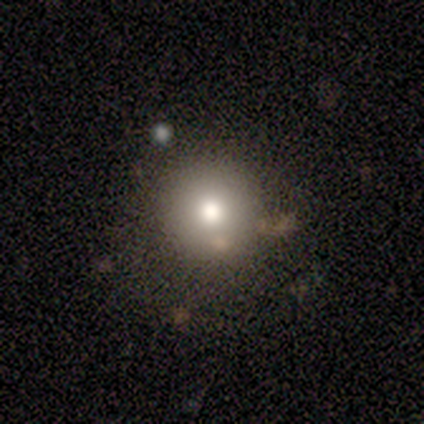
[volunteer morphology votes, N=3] type=smooth (100%); roundness=round (100%); merging=none (67%).